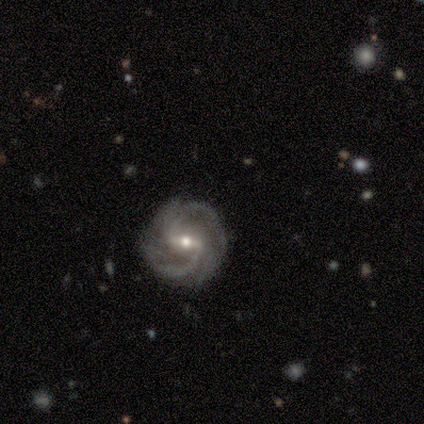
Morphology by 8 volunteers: Smooth or featured?
  - featured or disk: 100% *
  - smooth: 0%
  - star or artifact: 0%
Edge-on disk?
  - no: 100% *
  - yes: 0%
Bar?
  - weak: 62% *
  - strong: 38%
  - no: 0%
Spiral arms?
  - yes: 100% *
  - no: 0%
Spiral winding?
  - tight: 62% *
  - medium: 38%
  - loose: 0%
Spiral arm count?
  - 2: 75% *
  - 4: 12%
  - can't tell: 12%
  - 1: 0%
  - 3: 0%
  - more than 4: 0%
Bulge size?
  - small: 75% *
  - moderate: 25%
  - dominant: 0%
  - large: 0%
  - none: 0%
Merging?
  - none: 75% *
  - minor disturbance: 25%
  - major disturbance: 0%
  - merger: 0%